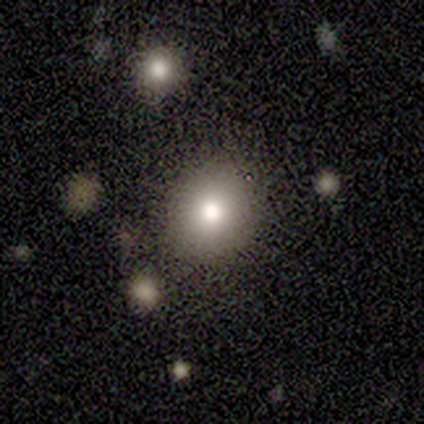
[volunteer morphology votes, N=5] A smooth galaxy with no disk features (80%) that is round (100%). Merging: none (100%).